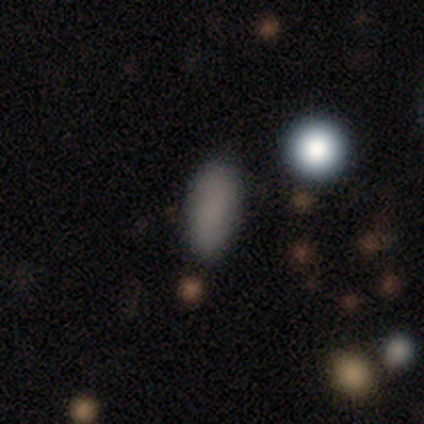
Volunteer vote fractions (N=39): A smooth galaxy with no disk features (82%) that is in between round and cigar-shaped (72%).

Vote fractions:
- Smooth or featured? smooth: 82% / star or artifact: 15% / featured or disk: 3%
- How rounded? in between: 72% / round: 16% / cigar-shaped: 12%
- Merging? none: 88% / minor disturbance: 9% / major disturbance: 3% / merger: 0%